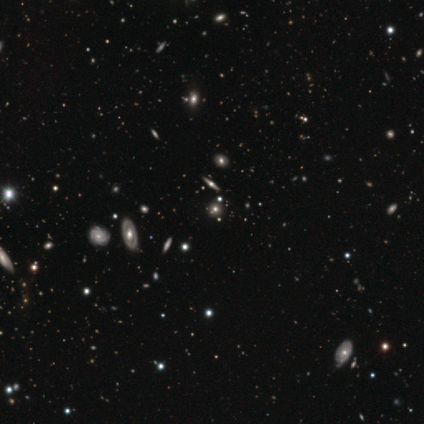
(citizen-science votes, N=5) Smooth or featured? star or artifact (60%)